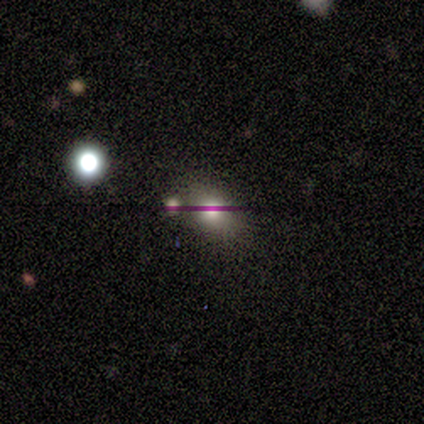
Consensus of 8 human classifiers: Volunteers were most divided on "smooth or featured": smooth: 50%, featured or disk: 25%, star or artifact: 25%. More confident: how rounded — round (100%); merging — none (83%).